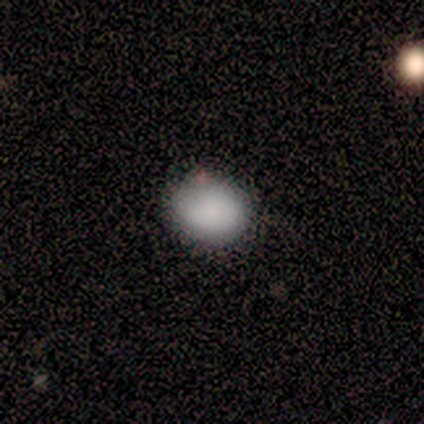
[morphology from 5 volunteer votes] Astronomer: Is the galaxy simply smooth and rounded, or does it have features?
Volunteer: smooth — 100%.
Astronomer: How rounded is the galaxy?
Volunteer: round — 80%.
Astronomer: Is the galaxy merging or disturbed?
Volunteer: none — 100%.